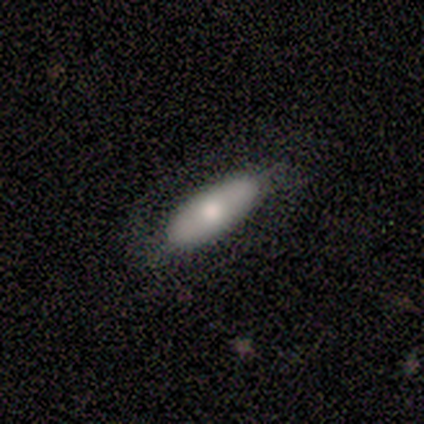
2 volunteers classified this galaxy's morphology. Smooth or featured? smooth (50%, tied with star or artifact)
How rounded? cigar-shaped (100%)
Merging? none (100%)